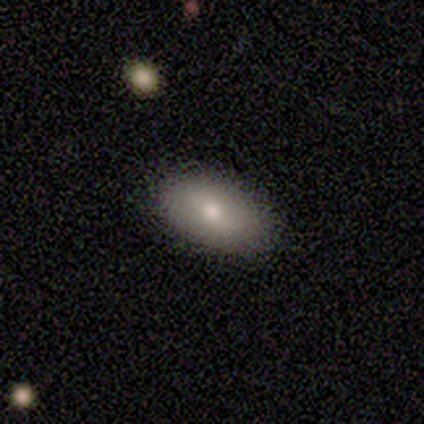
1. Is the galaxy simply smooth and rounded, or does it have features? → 75% smooth, 25% featured or disk, 0% star or artifact.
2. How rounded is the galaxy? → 100% in between, 0% round, 0% cigar-shaped.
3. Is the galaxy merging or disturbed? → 100% none, 0% minor disturbance, 0% major disturbance, 0% merger.